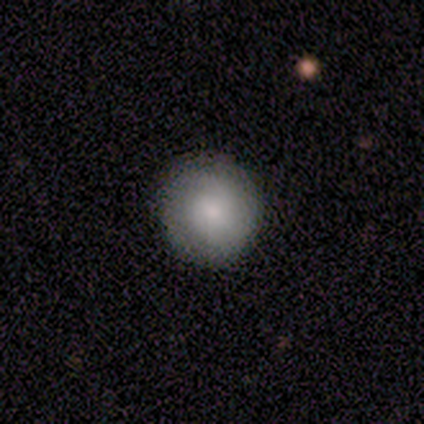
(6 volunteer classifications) Morphology: type=smooth (67%); roundness=round (100%); merging=none (80%).